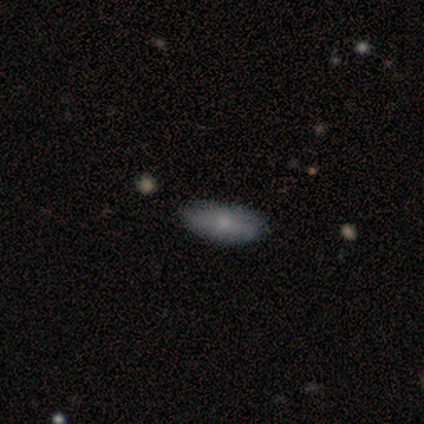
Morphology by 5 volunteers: smooth 80%, featured or disk 20%, star or artifact 0%. Down the decision tree: how rounded — in between (100%); merging — none (100%).